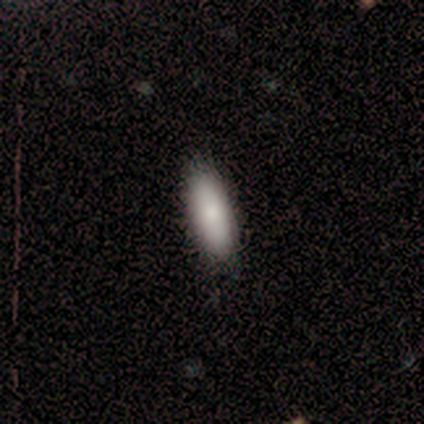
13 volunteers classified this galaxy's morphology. Smooth or featured? smooth (69%)
How rounded? in between (67%)
Merging? none (91%)